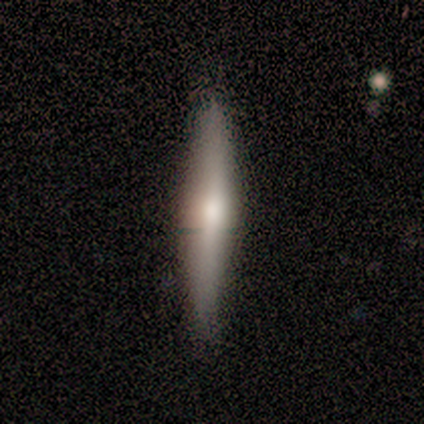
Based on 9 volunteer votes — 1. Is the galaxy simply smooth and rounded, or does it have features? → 67% featured or disk, 22% smooth, 11% star or artifact.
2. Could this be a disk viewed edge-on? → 100% yes, 0% no.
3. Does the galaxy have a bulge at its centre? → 67% rounded, 33% none, 0% boxy.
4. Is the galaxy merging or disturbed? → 88% none, 12% minor disturbance, 0% major disturbance, 0% merger.